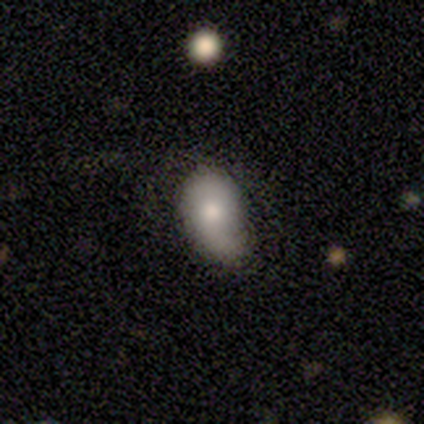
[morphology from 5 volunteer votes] Smooth or featured? smooth (80%)
How rounded? in between (75%)
Merging? none (50%)